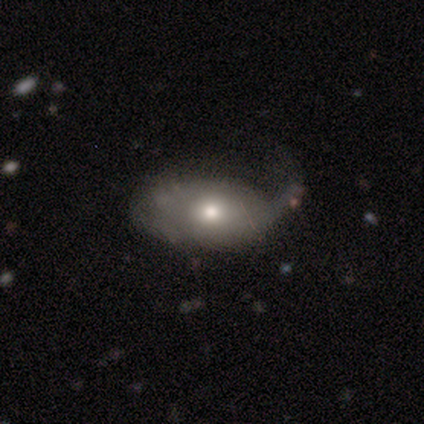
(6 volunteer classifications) A smooth galaxy with no disk features (83%) that is in between round and cigar-shaped (80%).

Vote fractions:
- Smooth or featured? smooth: 83% / featured or disk: 17% / star or artifact: 0%
- How rounded? in between: 80% / round: 20% / cigar-shaped: 0%
- Merging? none: 33% (tied) / minor disturbance: 33% (tied) / major disturbance: 33% (tied) / merger: 0%